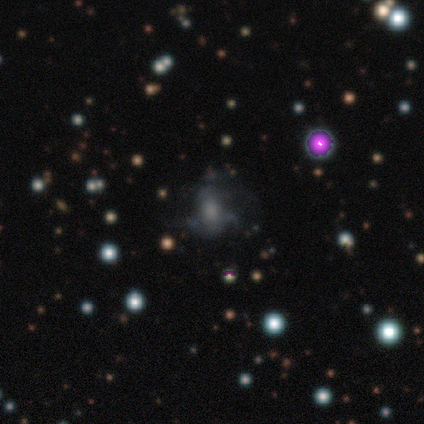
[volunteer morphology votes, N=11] smooth-or-featured: featured or disk: 55% | smooth: 27% | star or artifact: 18%
  disk-edge-on: no: 100% | yes: 0%
    bar: no: 83% | weak: 17% | strong: 0%
    has-spiral-arms: no: 67% | yes: 33%
    bulge-size: large: 33% (tied) | moderate: 33% (tied) | none: 33% (tied) | dominant: 0% | small: 0%
  merging: major disturbance: 44% | minor disturbance: 33% | none: 22% | merger: 0%